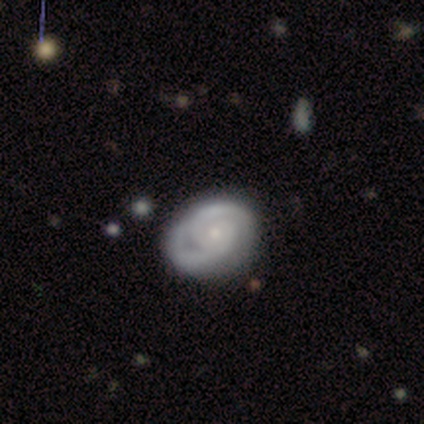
smooth_or_featured: smooth (p=0.40) [tied with: featured or disk p=0.40]
how_rounded: round (p=1.00)
merging: minor disturbance (p=0.50) [alt: none p=0.25]